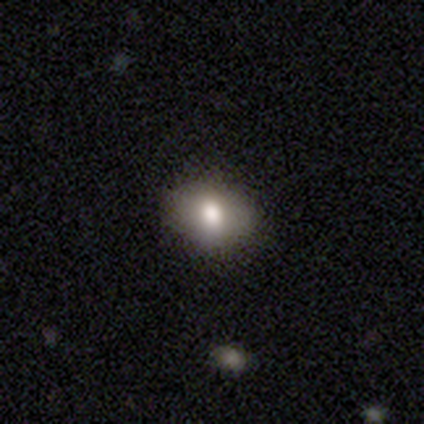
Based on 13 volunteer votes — smooth 69%, featured or disk 31%, star or artifact 0%. Down the decision tree: how rounded — in between (89%); merging — none (100%).